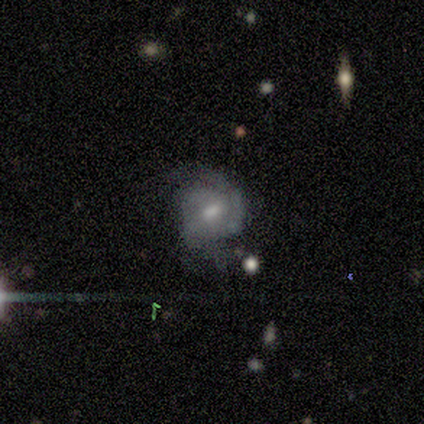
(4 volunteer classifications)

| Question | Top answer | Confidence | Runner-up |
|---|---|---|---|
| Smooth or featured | featured or disk | 100% | — |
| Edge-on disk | no | 100% | — |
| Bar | weak | 75% | strong (25%) |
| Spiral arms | yes | 100% | — |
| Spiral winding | tight | 100% | — |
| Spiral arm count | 1 | 50% | 2 (25%) |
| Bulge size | small | 75% | moderate (25%) |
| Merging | none | 50% | minor disturbance (25%) |